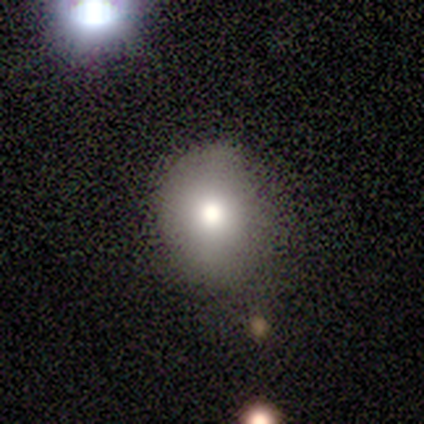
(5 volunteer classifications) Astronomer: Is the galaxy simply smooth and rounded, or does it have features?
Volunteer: smooth — 80%.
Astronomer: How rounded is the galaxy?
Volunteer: round — 100%.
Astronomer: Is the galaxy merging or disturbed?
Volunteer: none — 60% (runner-up: minor disturbance, 40%).